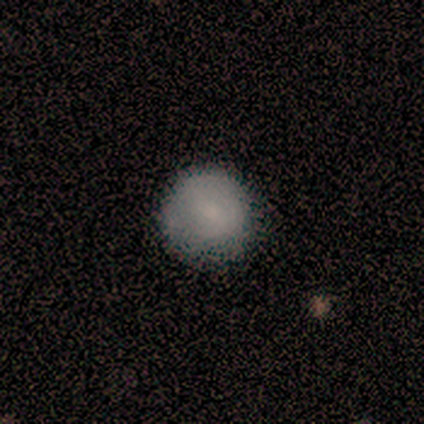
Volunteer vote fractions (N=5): Smooth or featured: smooth — 60% (featured or disk — 20%)
How rounded: round — 100%
Merging: none — 75% (minor disturbance — 25%)